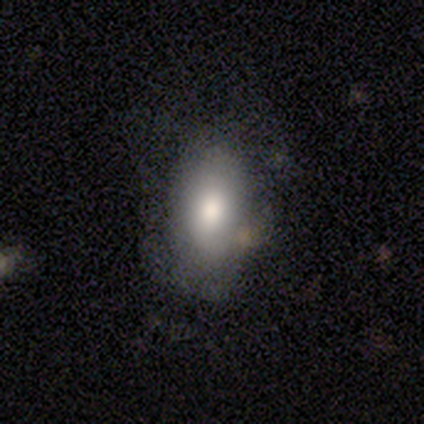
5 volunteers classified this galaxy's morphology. This appears to be a smooth galaxy with no disk features (80%) that is in between round and cigar-shaped (100%). Merging: none (60%).